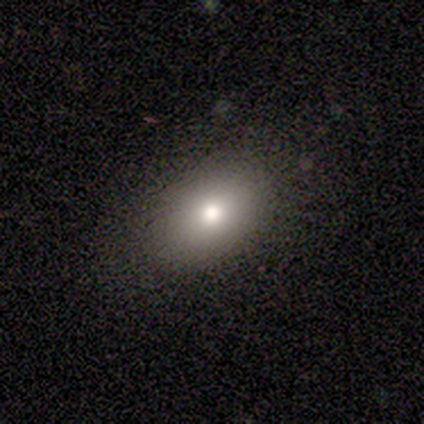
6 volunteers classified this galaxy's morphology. Smooth or featured: smooth — 67% (featured or disk — 17%)
How rounded: in between — 100%
Merging: none — 80% (minor disturbance — 20%)